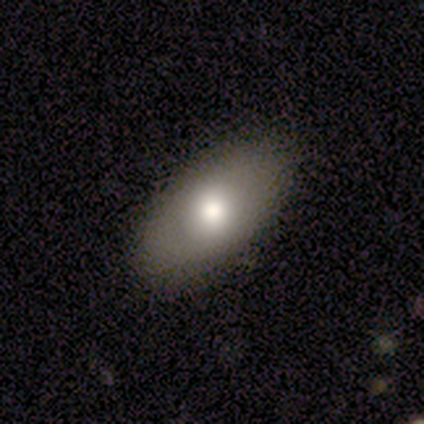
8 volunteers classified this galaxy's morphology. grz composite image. It shows a smooth galaxy with no disk features (50%, tied with featured or disk) that is in between round and cigar-shaped (100%). Merging: none (88%).